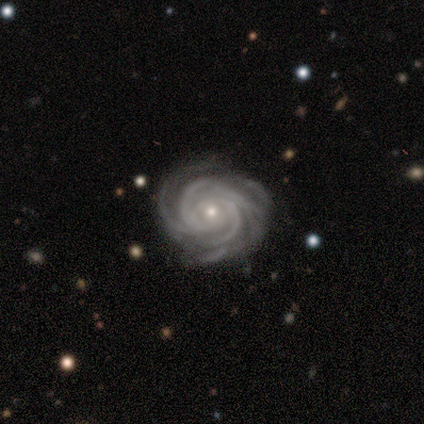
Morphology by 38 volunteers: smooth_or_featured: featured or disk (p=0.95) [alt: star or artifact p=0.05]
disk_edge_on: no (p=0.97) [alt: yes p=0.03]
bar: no (p=0.69) [alt: strong p=0.17]
has_spiral_arms: yes (p=1.00)
spiral_winding: tight (p=0.91) [alt: medium p=0.06]
spiral_arm_count: more than 4 (p=0.31) [alt: 4 p=0.26]
bulge_size: small (p=0.63) [alt: moderate p=0.34]
merging: none (p=0.69) [alt: minor disturbance p=0.22]